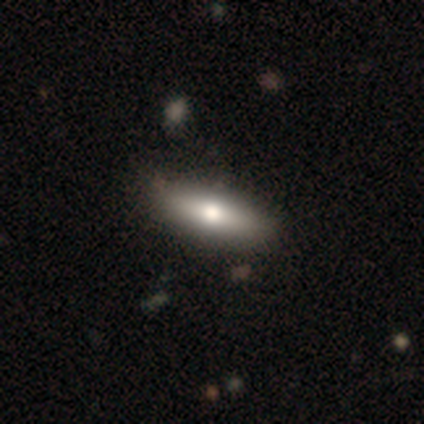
Overall: smooth (60%; featured or disk 40%). How rounded: in between (67%; cigar-shaped 33%). Merging: none (100%).